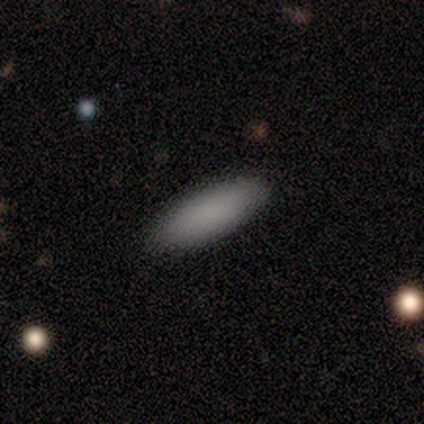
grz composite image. It shows a smooth galaxy with no disk features (100%) that is in between round and cigar-shaped (80%). Merging: none (100%).